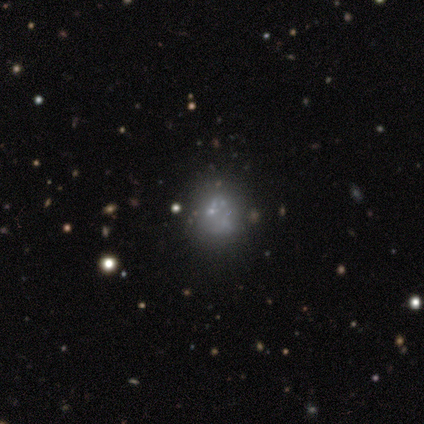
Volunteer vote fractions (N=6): Volunteers were most divided on "smooth or featured": star or artifact: 67%, smooth: 17%, featured or disk: 17%.